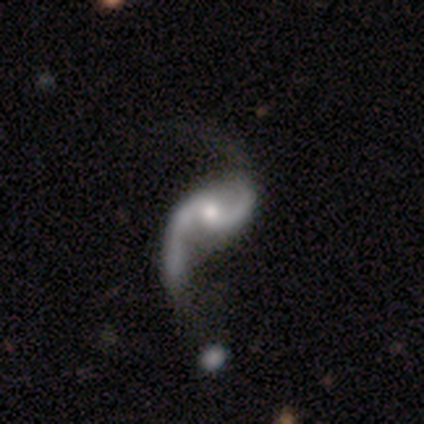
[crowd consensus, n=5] Morphology: type=featured or disk (80%); edge-on=no (100%); bar=no (100%); spiral arms=yes (100%); winding=loose (100%); arm count=2 (100%); bulge=moderate (50%, tied with small); merging=none (50%).